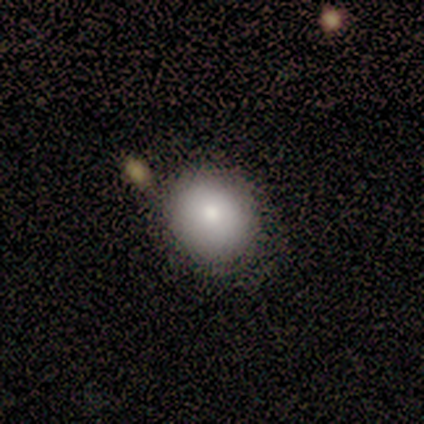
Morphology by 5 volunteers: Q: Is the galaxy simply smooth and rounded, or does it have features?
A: smooth — 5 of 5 (100%).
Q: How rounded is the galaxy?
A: round — 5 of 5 (100%).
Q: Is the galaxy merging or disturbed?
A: none — 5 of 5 (100%).